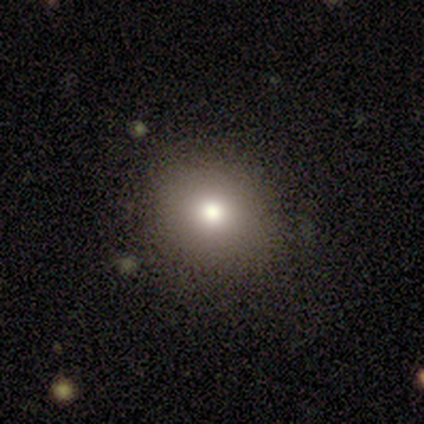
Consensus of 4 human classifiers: Smooth or featured? 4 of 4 (100%) said smooth. How rounded? 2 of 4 (50%, tied with in between) said round. Merging? 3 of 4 (75%) said none.